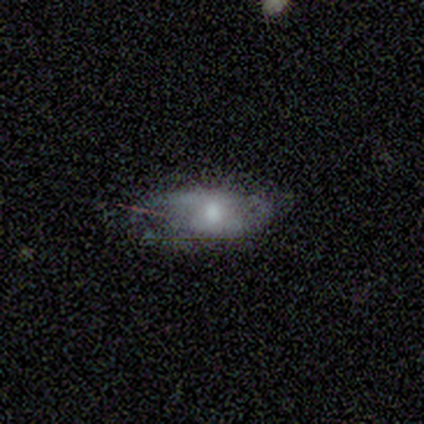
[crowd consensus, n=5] featured or disk 80%, smooth 20%, star or artifact 0%. Down the decision tree: edge-on disk — yes (50%, tied with no); edge-on bulge — none (50%, tied with rounded); merging — none (80%).